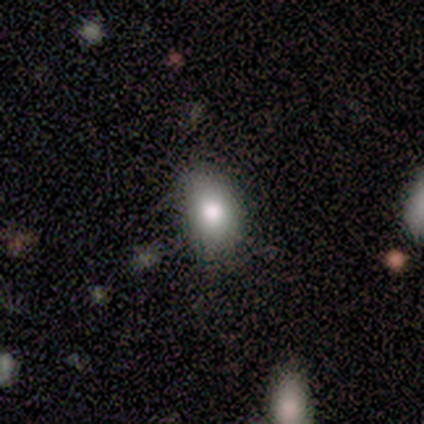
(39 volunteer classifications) smooth-or-featured: smooth: 69% | featured or disk: 18% | star or artifact: 13%
  how-rounded: in between: 81% | round: 19% | cigar-shaped: 0%
  merging: none: 85% | minor disturbance: 15% | major disturbance: 0% | merger: 0%